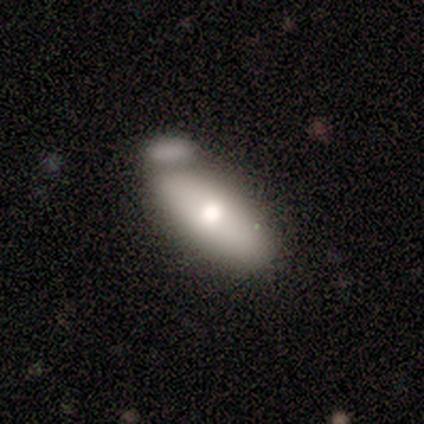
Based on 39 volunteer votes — This is possibly a smooth galaxy (56%). How rounded: clearly in between (82%). Merging: marginally merger (34%).